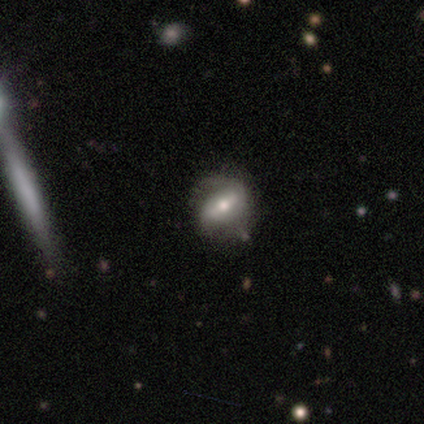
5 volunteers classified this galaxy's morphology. smooth_or_featured: featured or disk (p=0.80) [alt: smooth p=0.20]
disk_edge_on: yes (p=0.50) [tied with: no p=0.50]
edge_on_bulge: none (p=0.50) [tied with: rounded p=0.50]
merging: none (p=0.80) [alt: merger p=0.20]